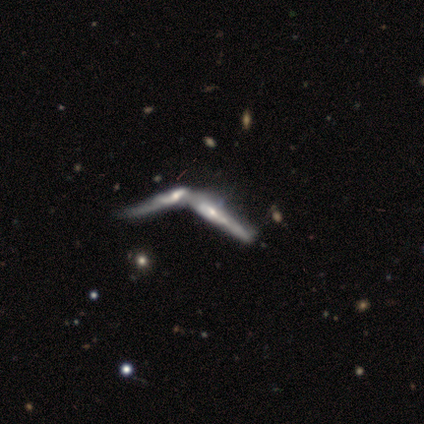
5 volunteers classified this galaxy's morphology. This appears to be a featured or disk galaxy (80%) viewed edge-on (75%) with no central bulge (67%). Merging: merger (80%).